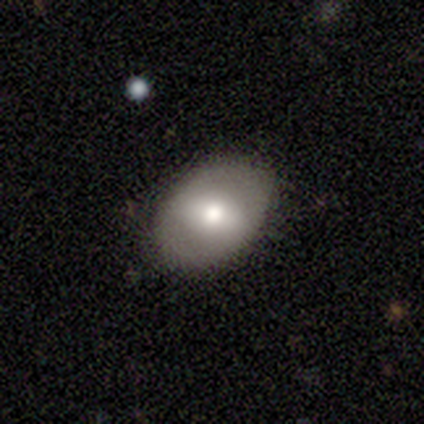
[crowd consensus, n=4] Q: Smooth or featured?
A: smooth (50%); tied with: featured or disk (50%)
Q: How rounded?
A: in between (100%)
Q: Merging?
A: none (75%); runner-up: major disturbance (25%)